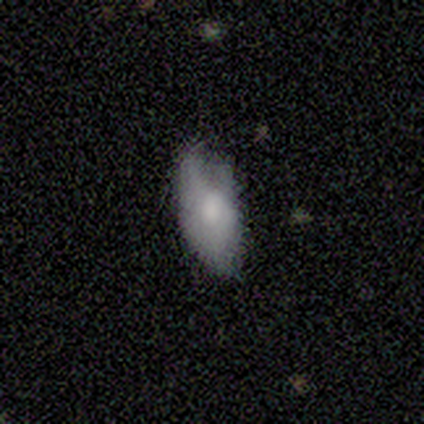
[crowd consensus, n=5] This appears to be a smooth galaxy with no disk features (60%) that is in between round and cigar-shaped (100%). Merging: none (60%).